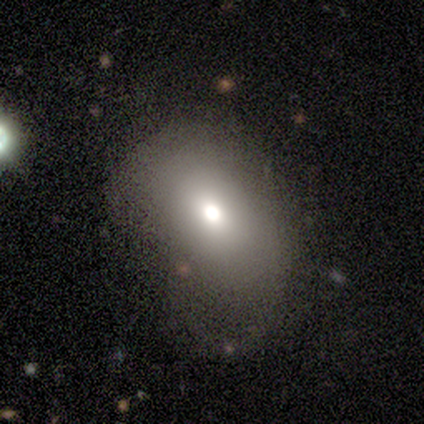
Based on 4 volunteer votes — This appears to be a smooth galaxy with no disk features (100%) that is in between round and cigar-shaped (75%). Merging: none (75%).